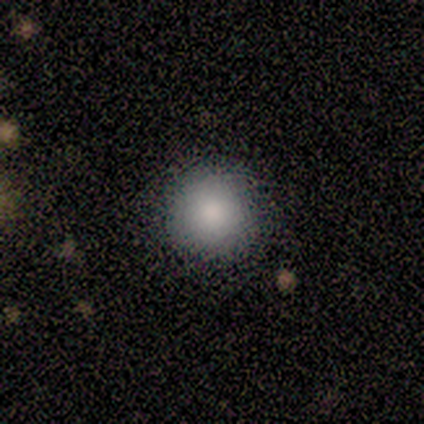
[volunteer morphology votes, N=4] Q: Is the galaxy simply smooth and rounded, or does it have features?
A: smooth — 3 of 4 (75%).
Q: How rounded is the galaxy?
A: round — 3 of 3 (100%).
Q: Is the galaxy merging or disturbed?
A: none — 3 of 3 (100%).